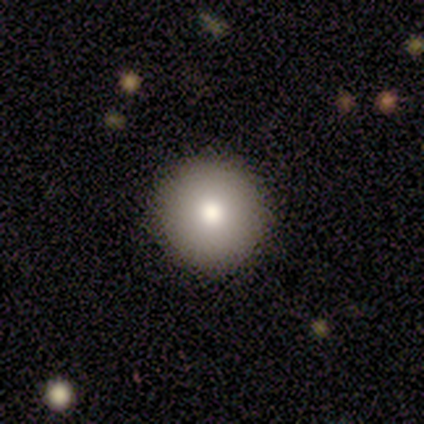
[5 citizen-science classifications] Overall: smooth (80%). How rounded: round (100%). Merging: none (80%).